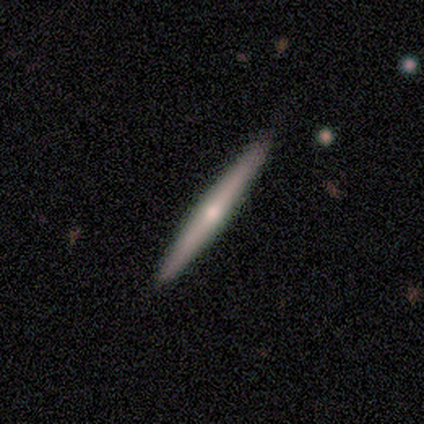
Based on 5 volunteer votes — smooth-or-featured: featured or disk: 80% | star or artifact: 20% | smooth: 0%
  disk-edge-on: yes: 100% | no: 0%
    edge-on-bulge: rounded: 75% | none: 25% | boxy: 0%
  merging: none: 100% | minor disturbance: 0% | major disturbance: 0% | merger: 0%